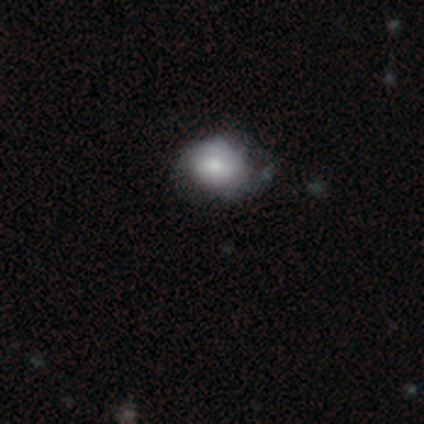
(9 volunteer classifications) Smooth or featured? 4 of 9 (44%, tied with featured or disk) said smooth. How rounded? 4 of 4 (100%) said round. Merging? 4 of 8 (50%, tied with minor disturbance) said none.